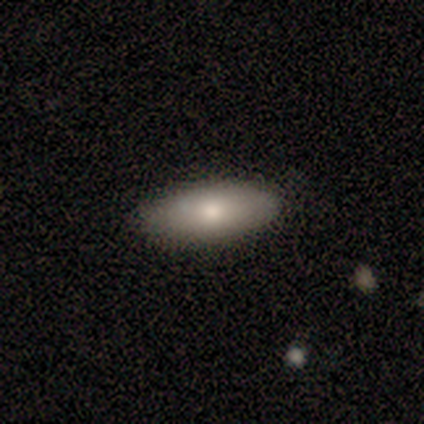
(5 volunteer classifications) Smooth or featured? smooth (80%)
How rounded? in between (50%, tied with cigar-shaped)
Merging? none (80%)